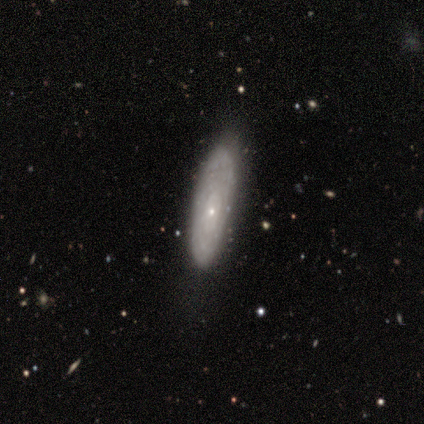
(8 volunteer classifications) featured or disk 50%, smooth 38%, star or artifact 12%. Down the decision tree: edge-on disk — no (100%); bar — no (100%); spiral arms — yes (50%, tied with no); spiral arm count — can't tell (100%); spiral winding — tight (100%); bulge size — small (100%); merging — none (71%).